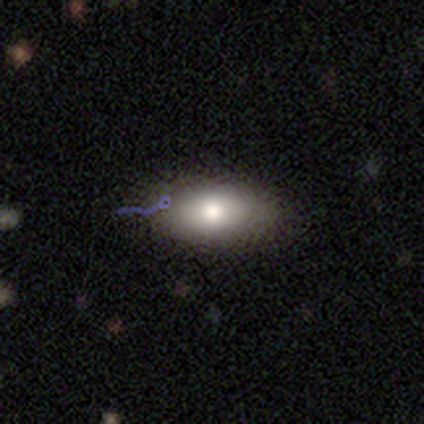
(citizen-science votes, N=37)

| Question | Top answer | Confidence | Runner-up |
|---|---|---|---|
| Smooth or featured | smooth | 70% | featured or disk (19%) |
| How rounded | in between | 92% | round (4%) |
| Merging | none | 55% | minor disturbance (3%) |